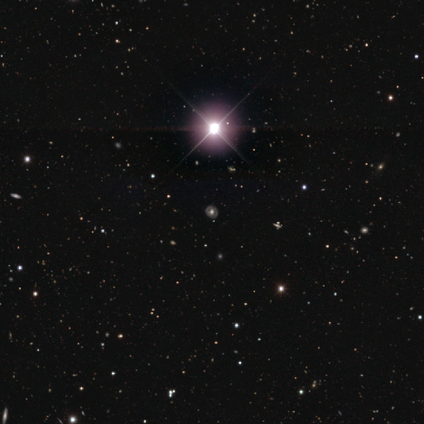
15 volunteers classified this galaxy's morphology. This is possibly a star or artifact rather than a galaxy (47%).